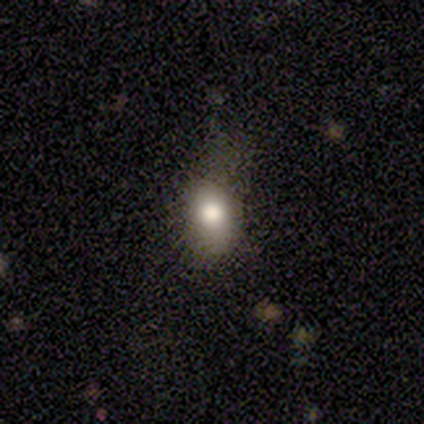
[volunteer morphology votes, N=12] smooth_or_featured: smooth (p=0.75) [alt: featured or disk p=0.17]
how_rounded: in between (p=1.00)
merging: none (p=0.73) [alt: minor disturbance p=0.27]